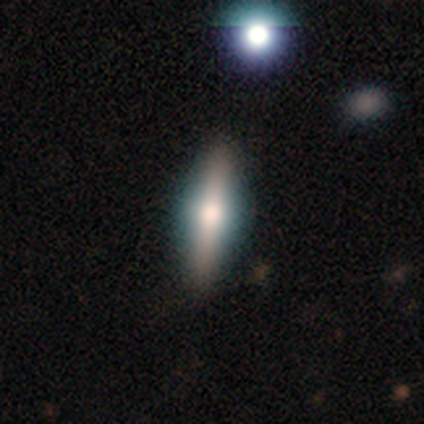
smooth_or_featured: featured or disk (p=0.78) [alt: smooth p=0.22]
disk_edge_on: yes (p=0.86) [alt: no p=0.14]
edge_on_bulge: rounded (p=0.83) [alt: boxy p=0.17]
merging: none (p=1.00)